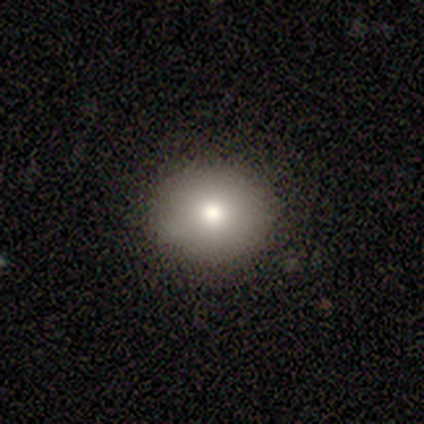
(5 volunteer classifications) Overall: smooth (80%). How rounded: round (75%). Merging: none (100%).